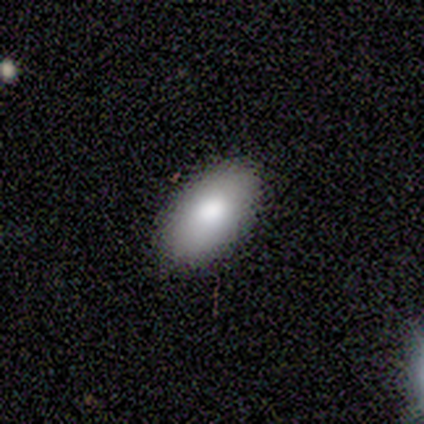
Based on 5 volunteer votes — smooth_or_featured: smooth (p=1.00)
how_rounded: in between (p=0.80) [alt: round p=0.20]
merging: none (p=1.00)